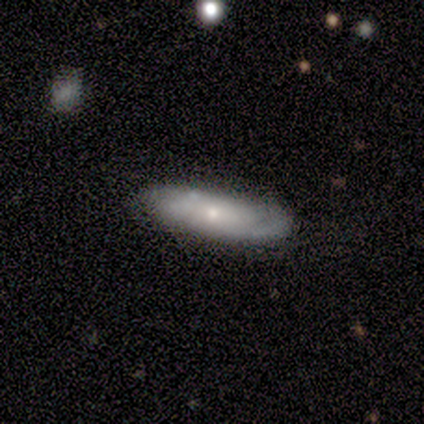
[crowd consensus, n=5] Smooth or featured?
  - featured or disk: 60% *
  - smooth: 40%
  - star or artifact: 0%
Edge-on disk?
  - no: 100% *
  - yes: 0%
Bar?
  - no: 100% *
  - strong: 0%
  - weak: 0%
Spiral arms?
  - yes: 67% *
  - no: 33%
Spiral winding?
  - tight: 50% * (tied)
  - loose: 50% * (tied)
  - medium: 0%
Spiral arm count?
  - 2: 100% *
  - 1: 0%
  - 3: 0%
  - 4: 0%
  - more than 4: 0%
  - can't tell: 0%
Bulge size?
  - small: 100% *
  - dominant: 0%
  - large: 0%
  - moderate: 0%
  - none: 0%
Merging?
  - none: 80% *
  - minor disturbance: 20%
  - major disturbance: 0%
  - merger: 0%